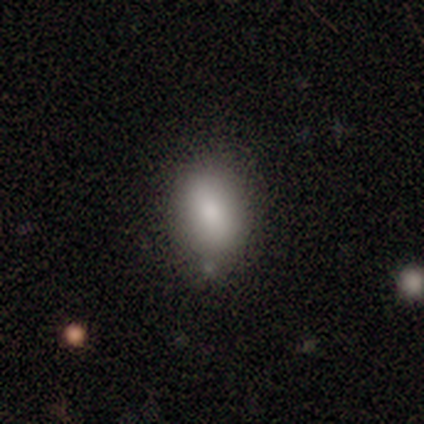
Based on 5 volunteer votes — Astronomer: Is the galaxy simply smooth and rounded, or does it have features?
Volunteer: smooth — 60%.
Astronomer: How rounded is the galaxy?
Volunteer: in between — 100%.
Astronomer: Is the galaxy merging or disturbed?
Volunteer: none — 75%.